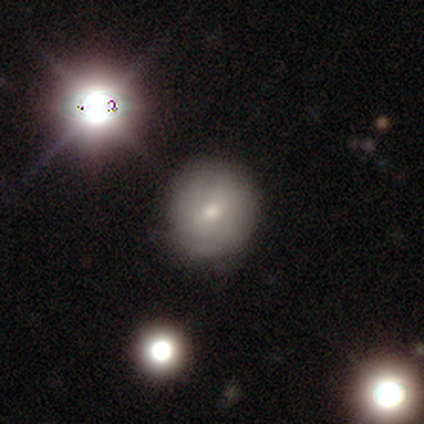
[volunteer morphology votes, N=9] Volunteers were most divided on "smooth or featured": smooth: 67%, featured or disk: 22%, star or artifact: 11%. More confident: how rounded — round (83%); merging — none (75%).